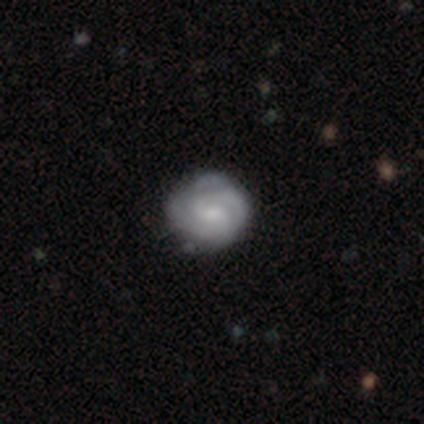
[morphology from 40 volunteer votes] Smooth or featured? 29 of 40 (72%) said featured or disk. Edge-on disk? 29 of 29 (100%) said no. Bar? 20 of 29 (69%) said no. Spiral arms? 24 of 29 (83%) said yes. Spiral winding? 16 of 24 (67%) said tight. Spiral arm count? 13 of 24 (54%) said 2. Bulge size? 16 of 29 (55%) said small. Merging? 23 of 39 (59%) said none.